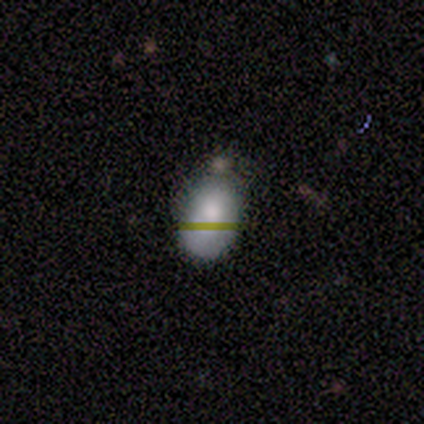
Smooth or featured? 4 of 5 (80%) said smooth. How rounded? 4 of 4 (100%) said in between. Merging? 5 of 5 (100%) said none.